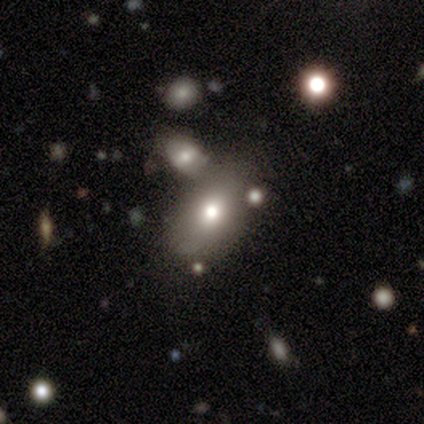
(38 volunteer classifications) smooth 71%, star or artifact 16%, featured or disk 13%. Down the decision tree: how rounded — in between (89%); merging — none (47%).